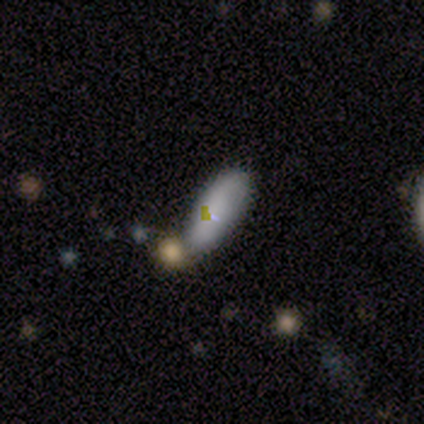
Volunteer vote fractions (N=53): Overall: smooth (74%). How rounded: in between (79%). Merging: none (62%; minor disturbance 23%).